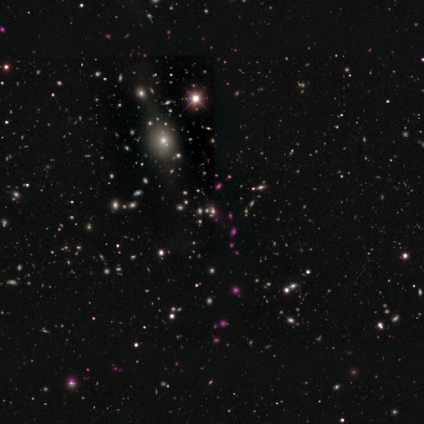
Smooth or featured?
  - star or artifact: 86% *
  - smooth: 14%
  - featured or disk: 0%